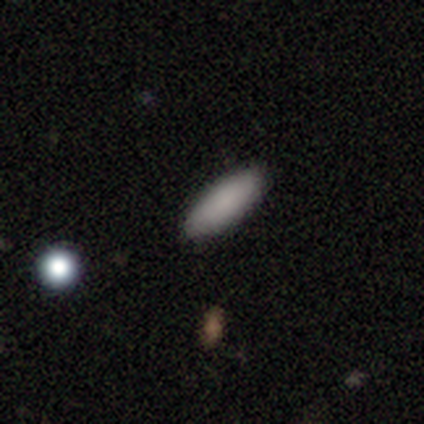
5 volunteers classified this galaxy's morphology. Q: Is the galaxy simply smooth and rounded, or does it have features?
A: smooth — 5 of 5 (100%).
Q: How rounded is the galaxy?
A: in between — 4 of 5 (80%).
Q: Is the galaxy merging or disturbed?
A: none — 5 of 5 (100%).